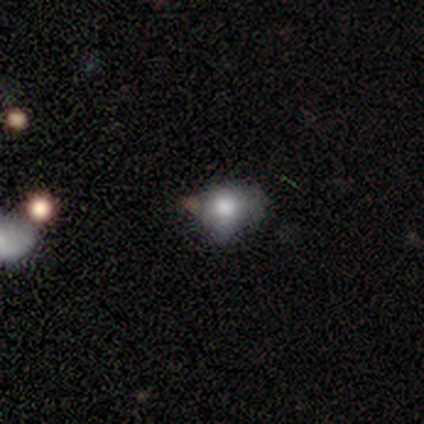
smooth 100%, featured or disk 0%, star or artifact 0%. Down the decision tree: how rounded — round (100%); merging — none (43%).